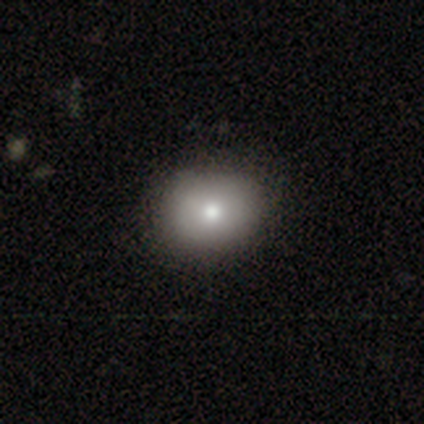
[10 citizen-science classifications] Smooth or featured: smooth — 80% (featured or disk — 20%)
How rounded: round — 75% (in between — 25%)
Merging: none — 100%